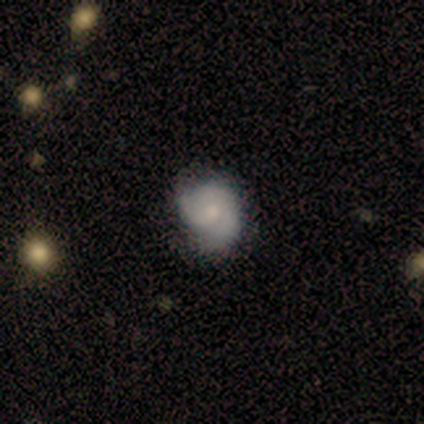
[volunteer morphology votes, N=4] This is possibly a featured or disk galaxy (50%). It is clearly not viewed edge-on (100%). Bar: possibly weak (50%, tied with no). Spiral arm pattern: clearly yes (100%). Spiral arm count: clearly 2 (100%). Spiral winding: possibly tight (50%, tied with medium). Central bulge: possibly small (50%, tied with none). Merging: marginally none (33%, tied with minor disturbance and merger).